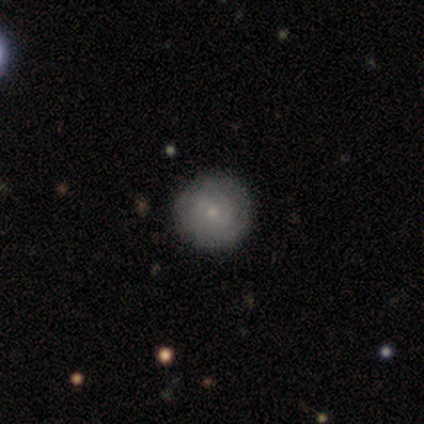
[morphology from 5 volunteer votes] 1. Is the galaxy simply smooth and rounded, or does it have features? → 80% smooth, 20% featured or disk, 0% star or artifact.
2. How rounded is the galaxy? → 75% round, 25% in between, 0% cigar-shaped.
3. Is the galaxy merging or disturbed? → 80% none, 20% minor disturbance, 0% major disturbance, 0% merger.